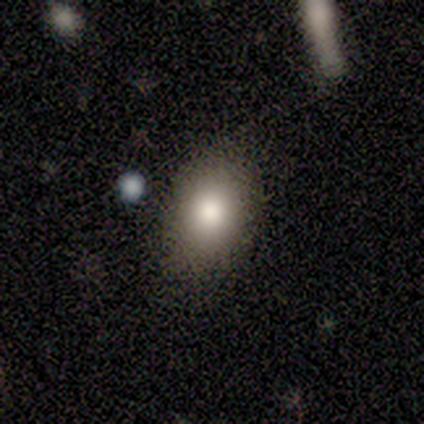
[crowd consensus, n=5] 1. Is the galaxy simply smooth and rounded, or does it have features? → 80% smooth, 20% featured or disk, 0% star or artifact.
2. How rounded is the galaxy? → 75% in between, 25% round, 0% cigar-shaped.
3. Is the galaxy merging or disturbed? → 80% none, 20% minor disturbance, 0% major disturbance, 0% merger.